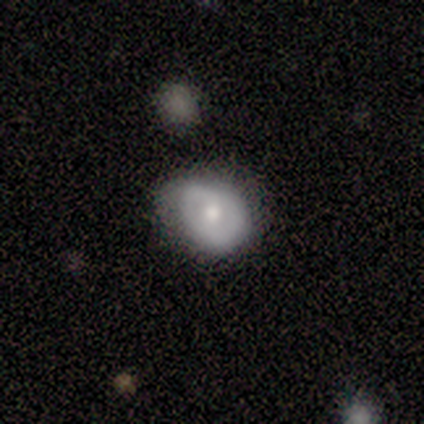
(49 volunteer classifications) Smooth or featured? smooth (47%, tied with featured or disk)
How rounded? round (61%)
Merging? none (70%)